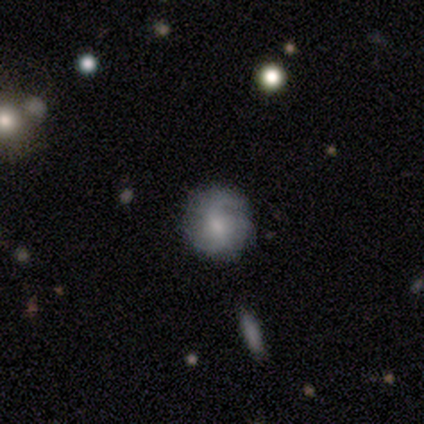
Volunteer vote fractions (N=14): A featured or disk galaxy (64%) with no bar (56%), 2 (50%) loose (50%) spiral arms (67%) and a moderate central bulge (56%).

Vote fractions:
- Smooth or featured? featured or disk: 64% / smooth: 36% / star or artifact: 0%
- Edge-on disk? no: 100% / yes: 0%
- Bar? no: 56% / weak: 33% / strong: 11%
- Spiral arms? yes: 67% / no: 33%
- Spiral winding? loose: 50% / tight: 33% / medium: 17%
- Spiral arm count? 2: 50% / 3: 33% / can't tell: 17% / 1: 0% / 4: 0% / more than 4: 0%
- Bulge size? moderate: 56% / small: 33% / none: 11% / dominant: 0% / large: 0%
- Merging? none: 79% / minor disturbance: 21% / major disturbance: 0% / merger: 0%